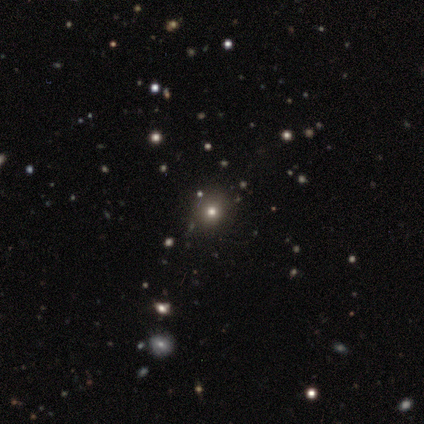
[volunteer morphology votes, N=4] This appears to be a star or artifact, not a galaxy (75%).